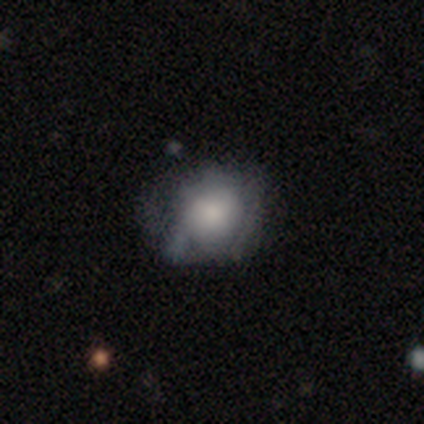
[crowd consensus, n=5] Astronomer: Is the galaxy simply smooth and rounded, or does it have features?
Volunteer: featured or disk — 60% (runner-up: smooth, 40%).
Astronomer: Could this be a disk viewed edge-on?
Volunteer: no — 100%.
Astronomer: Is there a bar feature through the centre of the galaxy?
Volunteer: no — 100%.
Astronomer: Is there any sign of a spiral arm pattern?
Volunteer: yes — 67%.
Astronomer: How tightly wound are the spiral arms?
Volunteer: tight — 50%, tied with medium at 50%.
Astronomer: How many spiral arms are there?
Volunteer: can't tell — 100%.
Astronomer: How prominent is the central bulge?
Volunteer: large — 67%.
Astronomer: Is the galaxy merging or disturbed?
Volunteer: none — 80%.